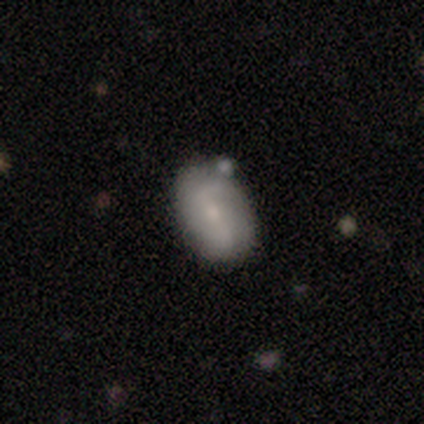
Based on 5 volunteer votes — Smooth or featured? 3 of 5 (60%) said smooth. How rounded? 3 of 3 (100%) said in between. Merging? 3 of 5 (60%) said none.